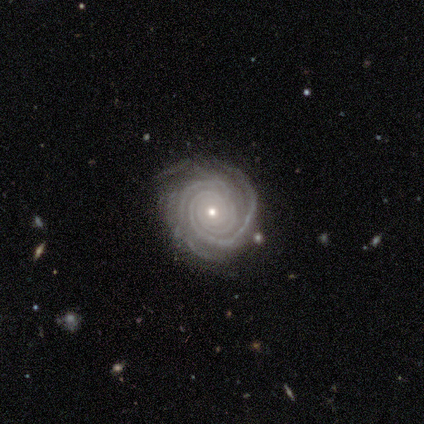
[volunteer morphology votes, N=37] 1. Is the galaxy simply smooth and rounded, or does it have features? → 97% featured or disk, 3% smooth, 0% star or artifact.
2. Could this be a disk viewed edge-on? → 94% no, 6% yes.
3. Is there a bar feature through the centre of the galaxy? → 71% no, 21% weak, 9% strong.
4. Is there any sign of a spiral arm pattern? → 100% yes, 0% no.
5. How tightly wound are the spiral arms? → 91% tight, 9% medium, 0% loose.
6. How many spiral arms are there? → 41% 2, 26% 3, 15% 4, 15% can't tell, 3% 1, 0% more than 4.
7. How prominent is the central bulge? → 65% small, 32% moderate, 3% large, 0% dominant, 0% none.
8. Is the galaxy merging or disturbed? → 76% none, 16% minor disturbance, 8% major disturbance, 0% merger.